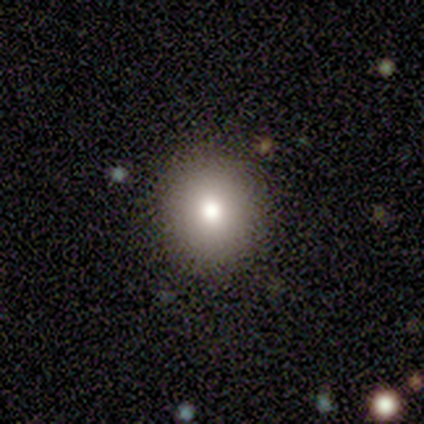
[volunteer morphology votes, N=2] This is clearly a smooth galaxy (100%). How rounded: clearly round (100%). Merging: clearly none (100%).